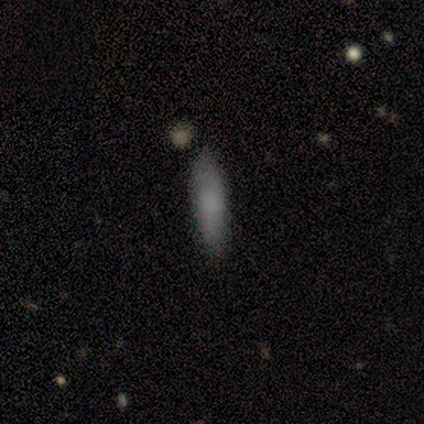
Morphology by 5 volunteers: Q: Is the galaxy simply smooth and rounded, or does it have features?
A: smooth — 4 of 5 (80%).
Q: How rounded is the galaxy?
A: in between — 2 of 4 (50%, tied with cigar-shaped).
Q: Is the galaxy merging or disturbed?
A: none — 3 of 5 (60%).